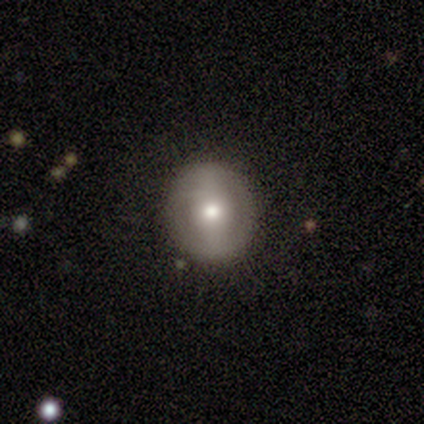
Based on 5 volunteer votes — A featured or disk galaxy (80%) with a strong bar (50%, tied with no), no spiral arms (75%) and a moderate central bulge (100%). Merging: none (100%).